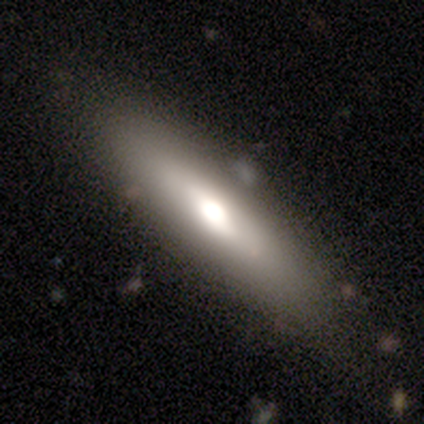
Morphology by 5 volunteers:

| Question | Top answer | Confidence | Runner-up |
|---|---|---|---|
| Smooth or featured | smooth | 80% | featured or disk (20%) |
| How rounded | cigar-shaped | 75% | in between (25%) |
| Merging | none | 60% | major disturbance (20%) |